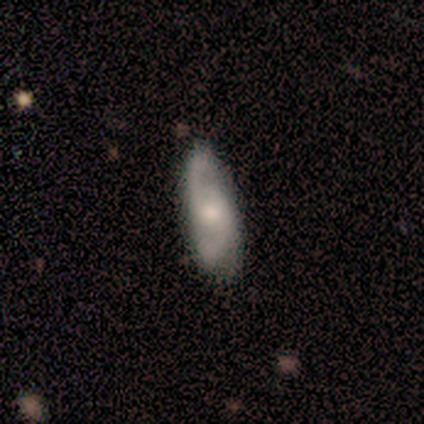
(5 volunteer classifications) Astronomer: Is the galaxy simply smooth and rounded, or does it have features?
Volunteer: featured or disk — 80%.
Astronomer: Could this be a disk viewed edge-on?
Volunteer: no — 100%.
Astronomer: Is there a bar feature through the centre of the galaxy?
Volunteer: no — 100%.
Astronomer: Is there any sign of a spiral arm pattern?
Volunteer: yes — 100%.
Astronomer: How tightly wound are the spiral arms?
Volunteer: medium — 75%.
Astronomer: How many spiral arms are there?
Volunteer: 2 — 50%.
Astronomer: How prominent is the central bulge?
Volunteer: moderate — 75%.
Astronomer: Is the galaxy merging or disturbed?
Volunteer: minor disturbance — 60% (runner-up: none, 40%).